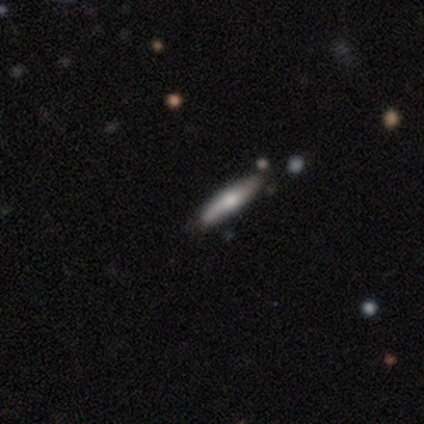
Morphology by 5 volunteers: Smooth or featured?
  - smooth: 80% *
  - featured or disk: 20%
  - star or artifact: 0%
How rounded?
  - in between: 50% * (tied)
  - cigar-shaped: 50% * (tied)
  - round: 0%
Merging?
  - none: 60% *
  - minor disturbance: 40%
  - major disturbance: 0%
  - merger: 0%